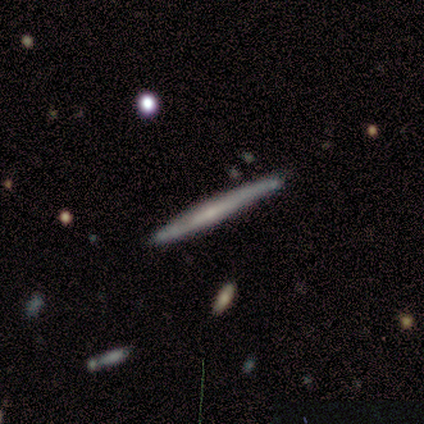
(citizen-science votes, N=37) Morphology: type=featured or disk (54%); edge-on=yes (100%); edge-on bulge=none (85%); merging=none (89%).